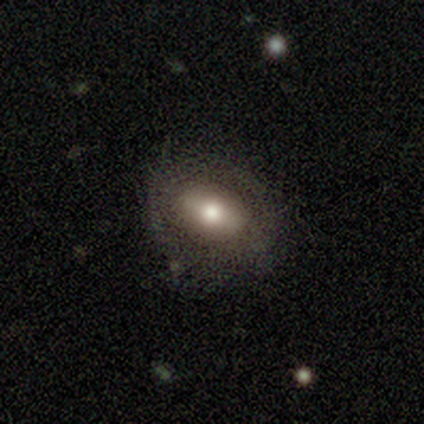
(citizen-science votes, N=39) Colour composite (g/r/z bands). It shows a smooth galaxy with no disk features (67%) that is in between round and cigar-shaped (73%). Merging: none (61%).